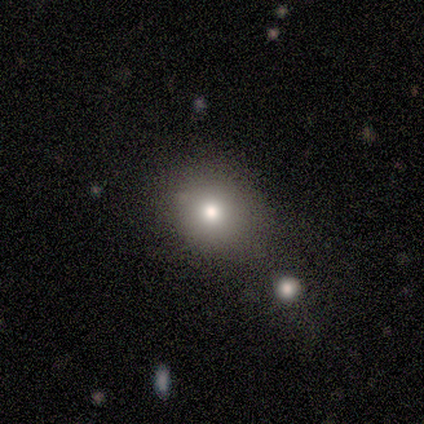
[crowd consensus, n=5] A smooth galaxy with no disk features (80%) that is round (50%, tied with in between). Merging: none (75%).